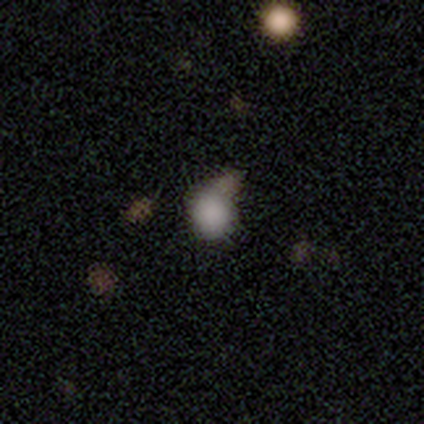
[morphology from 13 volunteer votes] Smooth or featured? 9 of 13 (69%) said smooth. How rounded? 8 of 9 (89%) said round. Merging? 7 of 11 (64%) said none.